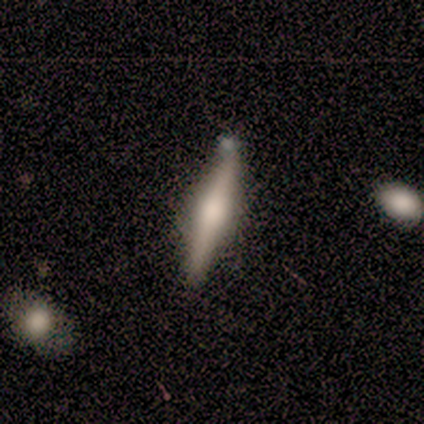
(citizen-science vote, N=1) Overall: featured or disk (100%). Edge-on disk: yes (100%). Edge-on bulge: rounded (100%). Merging: none (100%).